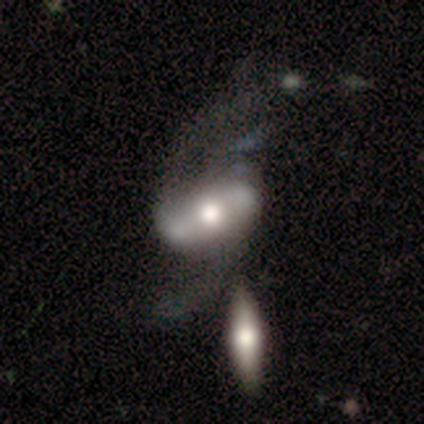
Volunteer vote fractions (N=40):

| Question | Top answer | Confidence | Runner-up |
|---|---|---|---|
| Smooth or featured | featured or disk | 80% | smooth (20%) |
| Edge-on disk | no | 97% | yes (3%) |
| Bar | strong | 52% | no (29%) |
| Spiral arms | yes | 81% | no (19%) |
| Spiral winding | loose | 84% | medium (16%) |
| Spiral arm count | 2 | 100% | — |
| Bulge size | moderate | 71% | large (23%) |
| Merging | none | 25% | merger (22%) |